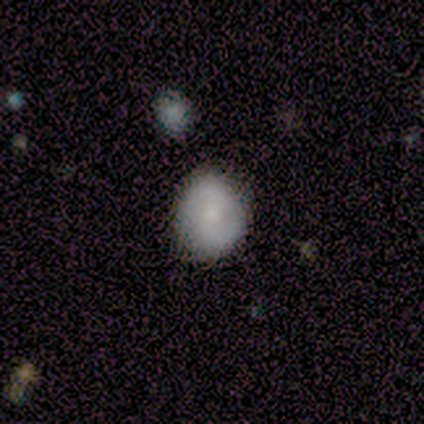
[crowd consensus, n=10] Smooth or featured: smooth — 90% (featured or disk — 10%)
How rounded: in between — 67% (round — 33%)
Merging: none — 80% (minor disturbance — 10%)